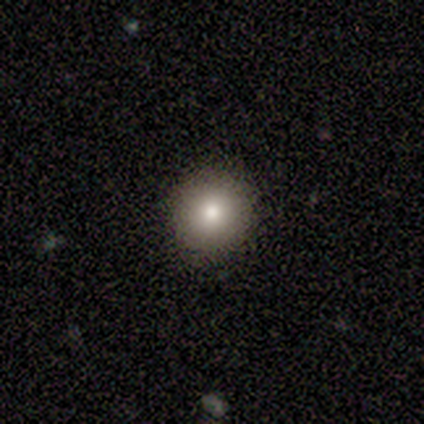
Smooth or featured?
  - smooth: 67% *
  - featured or disk: 33%
  - star or artifact: 0%
How rounded?
  - round: 100% *
  - in between: 0%
  - cigar-shaped: 0%
Merging?
  - none: 100% *
  - minor disturbance: 0%
  - major disturbance: 0%
  - merger: 0%